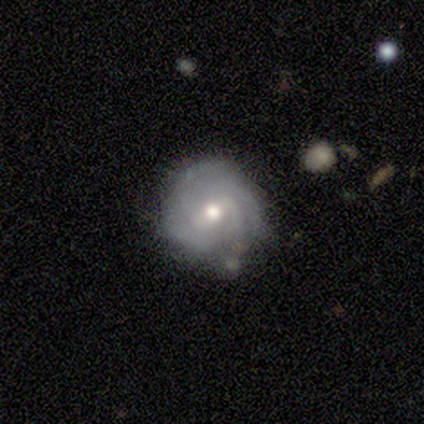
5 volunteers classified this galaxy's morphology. This appears to be a featured or disk galaxy (100%) with a weak bar (60%), 4 (60%) tight (60%) spiral arms (100%) and a moderate central bulge (100%). Merging: none (40%, tied with minor disturbance).